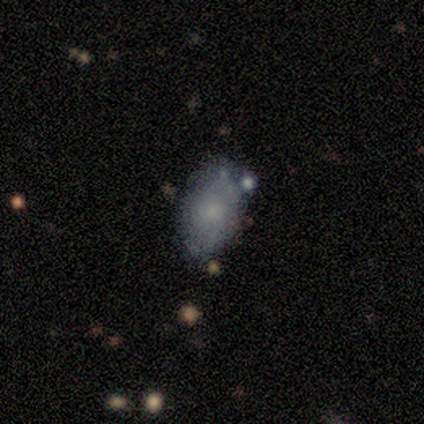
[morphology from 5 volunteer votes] Smooth or featured? 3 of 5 (60%) said smooth. How rounded? 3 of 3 (100%) said in between. Merging? 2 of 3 (67%) said none.